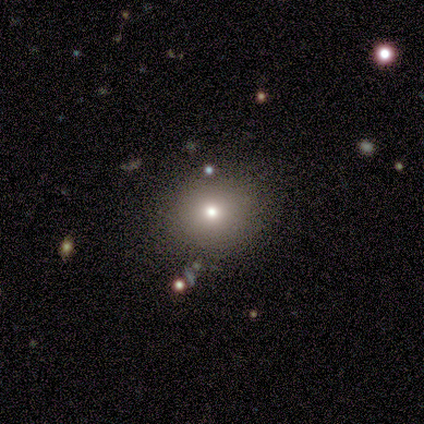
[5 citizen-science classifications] smooth-or-featured: featured or disk: 40% (tied) | star or artifact: 40% (tied) | smooth: 20%
  disk-edge-on: no: 100% | yes: 0%
    bar: no: 100% | strong: 0% | weak: 0%
    has-spiral-arms: no: 100% | yes: 0%
    bulge-size: moderate: 100% | dominant: 0% | large: 0% | small: 0% | none: 0%
  merging: none: 100% | minor disturbance: 0% | major disturbance: 0% | merger: 0%